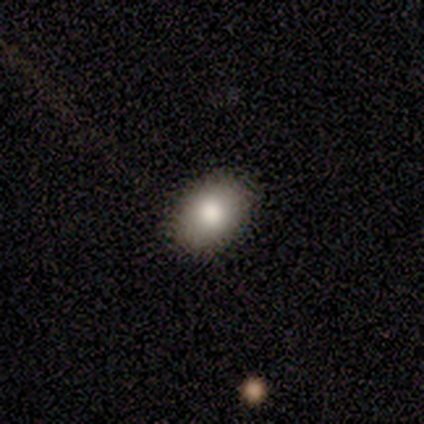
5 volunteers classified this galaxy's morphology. Q: Smooth or featured?
A: smooth (80%); runner-up: featured or disk (20%)
Q: How rounded?
A: in between (100%)
Q: Merging?
A: none (100%)